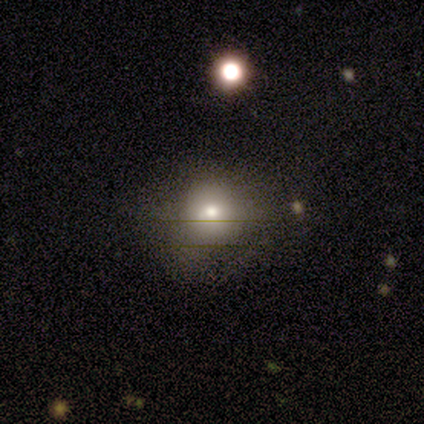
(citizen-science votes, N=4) Smooth or featured?
  - smooth: 75% *
  - featured or disk: 25%
  - star or artifact: 0%
How rounded?
  - round: 67% *
  - in between: 33%
  - cigar-shaped: 0%
Merging?
  - none: 75% *
  - minor disturbance: 25%
  - major disturbance: 0%
  - merger: 0%